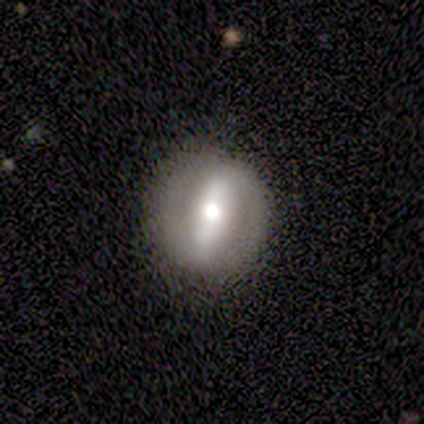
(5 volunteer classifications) Smooth or featured?
  - featured or disk: 100% *
  - smooth: 0%
  - star or artifact: 0%
Edge-on disk?
  - no: 100% *
  - yes: 0%
Bar?
  - strong: 60% *
  - weak: 20%
  - no: 20%
Spiral arms?
  - no: 80% *
  - yes: 20%
Bulge size?
  - moderate: 40% * (tied)
  - small: 40% * (tied)
  - large: 20%
  - dominant: 0%
  - none: 0%
Merging?
  - none: 100% *
  - minor disturbance: 0%
  - major disturbance: 0%
  - merger: 0%